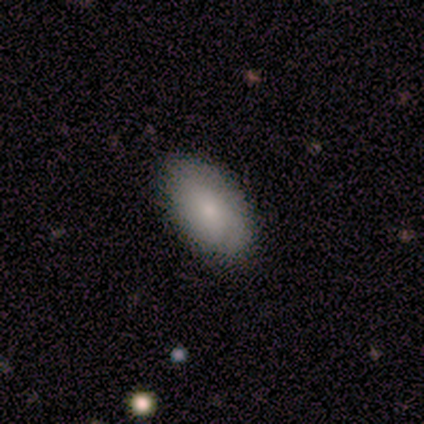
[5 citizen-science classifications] Morphology: type=smooth (60%); roundness=in between (100%); merging=none (100%).